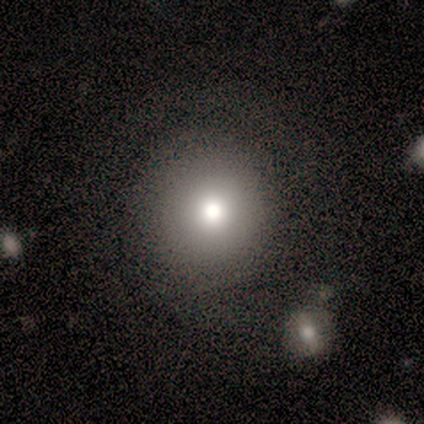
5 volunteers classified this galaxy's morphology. Smooth or featured? 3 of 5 (60%) said smooth. How rounded? 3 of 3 (100%) said round. Merging? 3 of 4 (75%) said none.